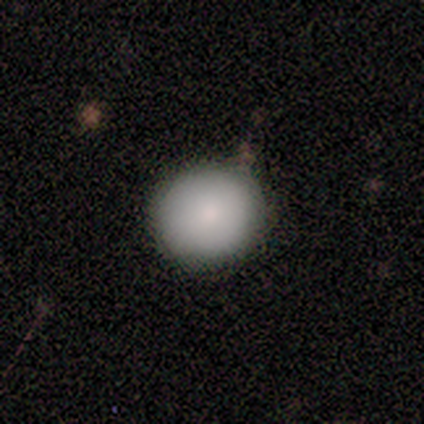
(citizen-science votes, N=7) Smooth or featured? smooth (100%)
How rounded? round (86%)
Merging? none (71%)